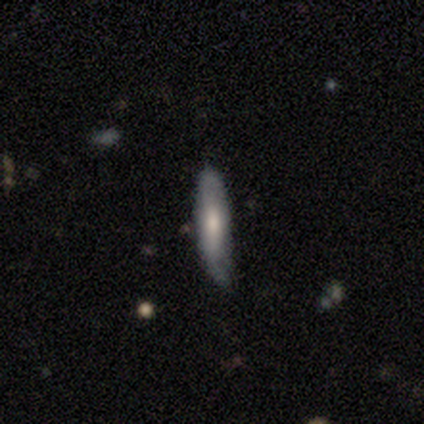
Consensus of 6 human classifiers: smooth_or_featured: smooth (p=1.00)
how_rounded: cigar-shaped (p=0.83) [alt: in between p=0.17]
merging: none (p=0.50) [alt: minor disturbance p=0.33]